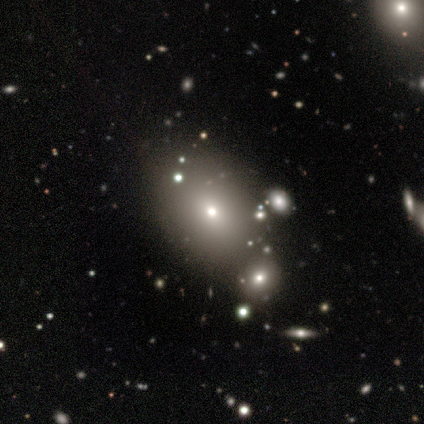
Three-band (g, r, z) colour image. It shows a smooth galaxy with no disk features (60%) that is in between round and cigar-shaped (67%). Merging: merger (50%).